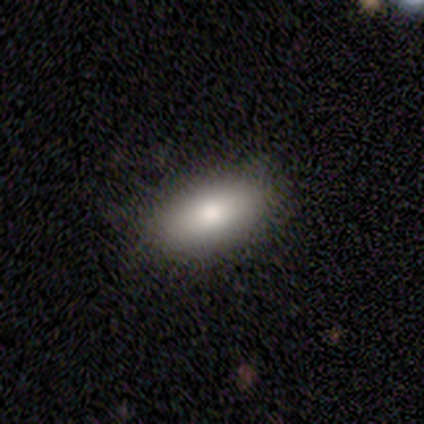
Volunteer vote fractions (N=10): smooth-or-featured: smooth: 80% | featured or disk: 20% | star or artifact: 0%
  how-rounded: in between: 100% | round: 0% | cigar-shaped: 0%
  merging: none: 100% | minor disturbance: 0% | major disturbance: 0% | merger: 0%